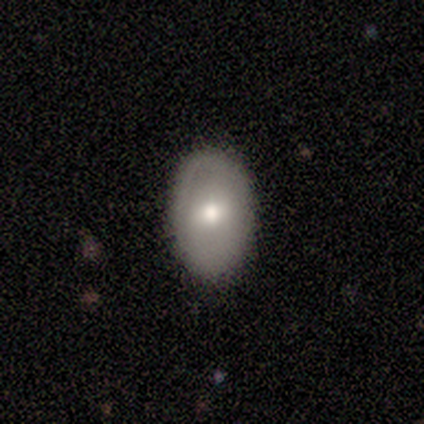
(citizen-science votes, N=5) Smooth or featured?
  - smooth: 100% *
  - featured or disk: 0%
  - star or artifact: 0%
How rounded?
  - in between: 100% *
  - round: 0%
  - cigar-shaped: 0%
Merging?
  - none: 100% *
  - minor disturbance: 0%
  - major disturbance: 0%
  - merger: 0%